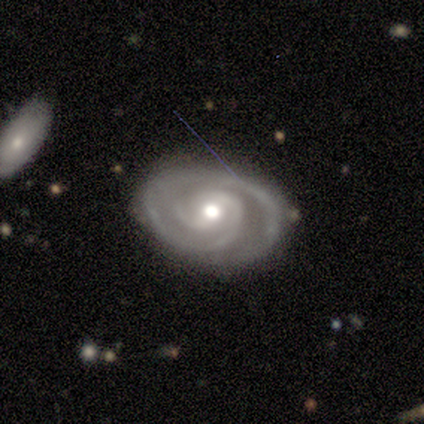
smooth-or-featured: featured or disk: 94% | smooth: 4% | star or artifact: 2%
  disk-edge-on: no: 100% | yes: 0%
    bar: no: 59% | weak: 35% | strong: 7%
    has-spiral-arms: yes: 100% | no: 0%
      spiral-winding: tight: 78% | medium: 22% | loose: 0%
      spiral-arm-count: 2: 63% | 3: 26% | can't tell: 7% | 4: 4% | 1: 0% | more than 4: 0%
    bulge-size: moderate: 78% | large: 11% | small: 11% | dominant: 0% | none: 0%
  merging: none: 77% | minor disturbance: 15% | major disturbance: 4% | merger: 4%